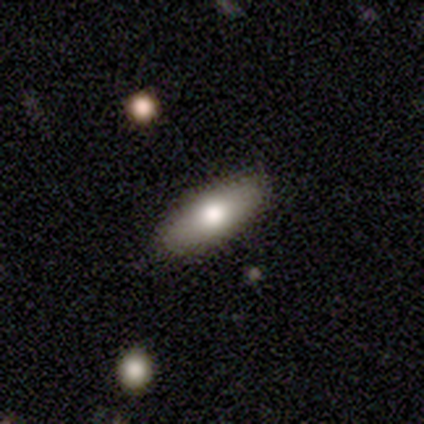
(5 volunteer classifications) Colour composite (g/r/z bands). It shows a smooth galaxy with no disk features (80%) that is in between round and cigar-shaped (50%, tied with cigar-shaped). Merging: none (60%).